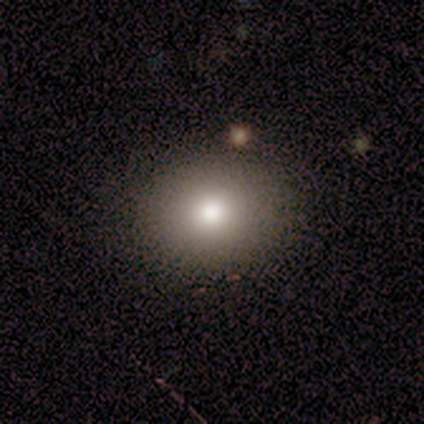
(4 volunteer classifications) smooth_or_featured: smooth (p=1.00)
how_rounded: round (p=0.50) [tied with: in between p=0.50]
merging: none (p=1.00)